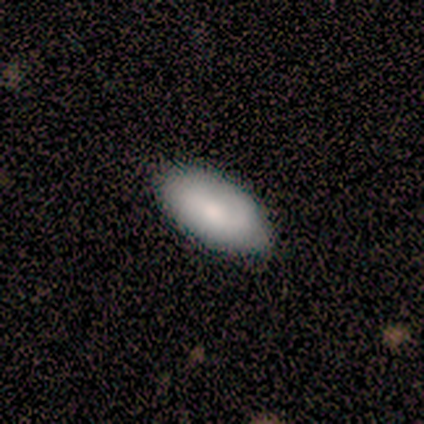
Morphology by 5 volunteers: Q: Smooth or featured?
A: smooth (80%); runner-up: featured or disk (20%)
Q: How rounded?
A: in between (100%)
Q: Merging?
A: none (100%)